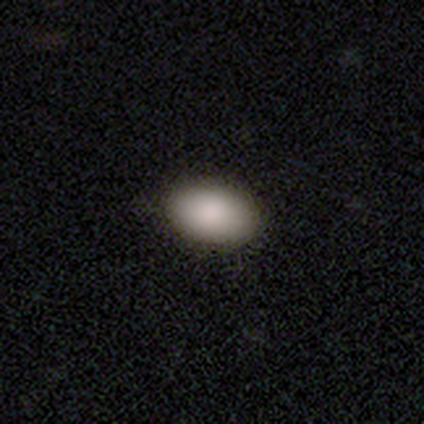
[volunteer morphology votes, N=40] smooth-or-featured: smooth: 95% | featured or disk: 5% | star or artifact: 0%
  how-rounded: in between: 95% | round: 3% | cigar-shaped: 3%
  merging: none: 65% | minor disturbance: 8% | merger: 2% | major disturbance: 0%